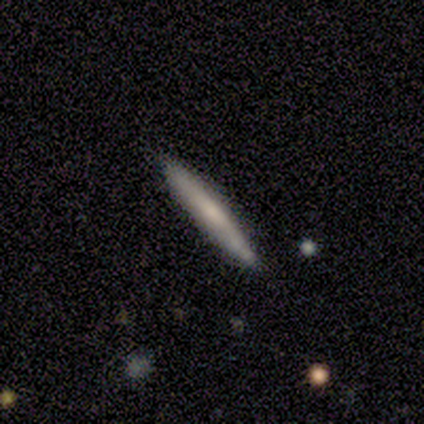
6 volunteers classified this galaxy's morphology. Volunteers were most divided on "smooth or featured" (2-way tie): smooth: 50%, featured or disk: 50%, star or artifact: 0%. More confident: how rounded — cigar-shaped (100%); merging — none (83%).